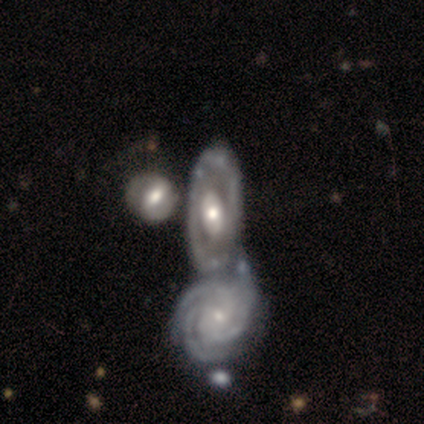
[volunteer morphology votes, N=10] Smooth or featured? featured or disk (70%)
Edge-on disk? no (100%)
Bar? strong (43%, tied with no)
Spiral arms? yes (57%)
Spiral winding? tight (75%)
Spiral arm count? 3 (50%, tied with 4)
Bulge size? moderate (57%)
Merging? merger (56%)